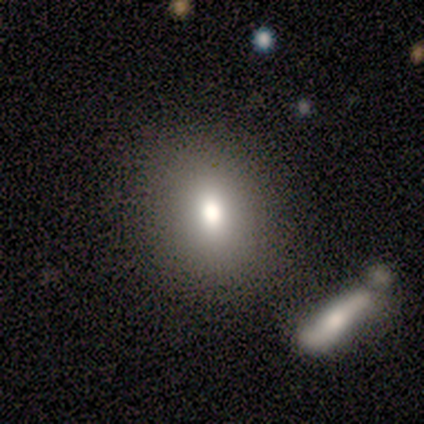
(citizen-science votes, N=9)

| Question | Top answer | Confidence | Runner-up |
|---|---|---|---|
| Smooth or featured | smooth | 100% | — |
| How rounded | round | 56% | in between (44%) |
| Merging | none | 78% | minor disturbance (11%) |